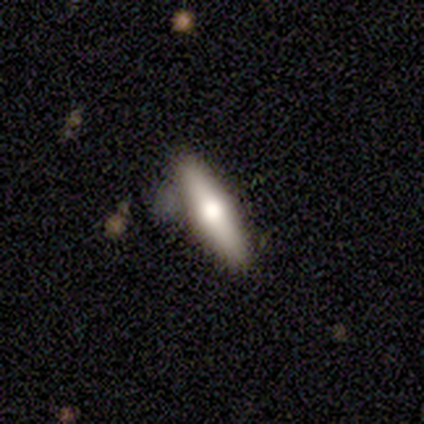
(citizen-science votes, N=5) smooth_or_featured: featured or disk (p=0.60) [alt: smooth p=0.40]
disk_edge_on: yes (p=1.00)
edge_on_bulge: rounded (p=1.00)
merging: none (p=0.80) [alt: minor disturbance p=0.20]